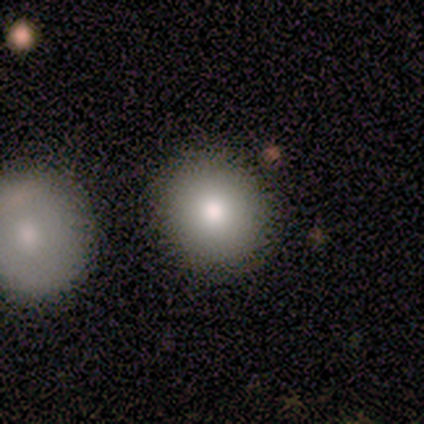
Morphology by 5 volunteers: A smooth galaxy with no disk features (60%) that is round (100%). Merging: none (100%).